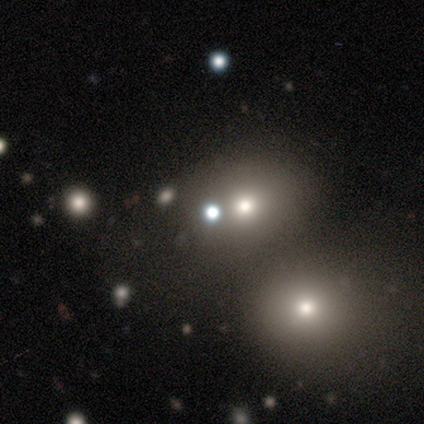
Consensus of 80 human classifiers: Smooth or featured? 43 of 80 (54%) said smooth. How rounded? 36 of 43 (84%) said round. Merging? 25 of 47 (53%) said none.